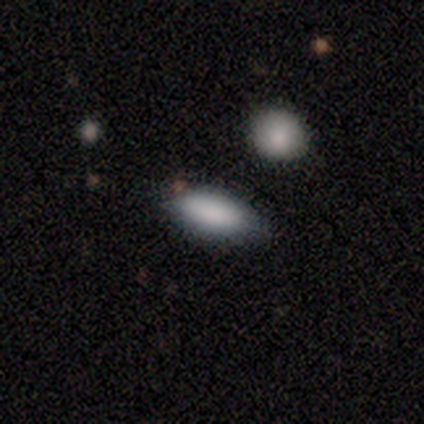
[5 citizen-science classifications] Volunteers were most divided on "smooth or featured": smooth: 80%, featured or disk: 20%, star or artifact: 0%. More confident: how rounded — in between (100%); merging — none (80%).